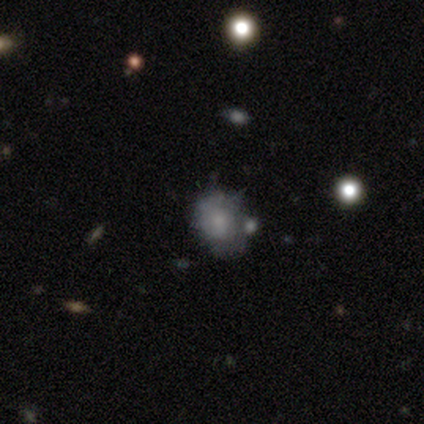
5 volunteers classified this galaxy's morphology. This appears to be a smooth galaxy with no disk features (60%) that is round (67%). Merging: none (50%, tied with major disturbance).